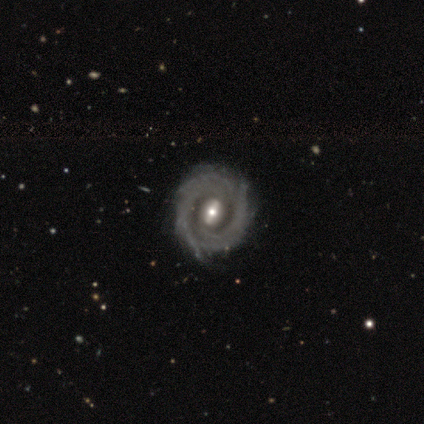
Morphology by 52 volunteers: Volunteers were most divided on "spiral arm count": can't tell: 46%, 2: 29%, more than 4: 17%, 3: 5%, 4: 2%, 1: 0%. More confident: edge-on disk — no (96%); smooth or featured — featured or disk (94%); spiral arms — yes (87%); spiral winding — tight (80%); merging — none (79%); bulge size — moderate (60%); bar — strong (57%).